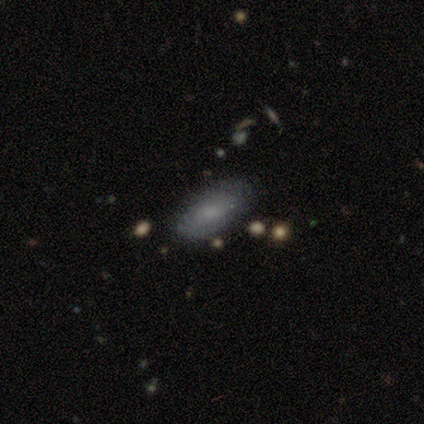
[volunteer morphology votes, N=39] A smooth galaxy with no disk features (64%) that is in between round and cigar-shaped (96%).

Vote fractions:
- Smooth or featured? smooth: 64% / featured or disk: 33% / star or artifact: 3%
- How rounded? in between: 96% / round: 4% / cigar-shaped: 0%
- Merging? none: 82% / minor disturbance: 18% / major disturbance: 0% / merger: 0%